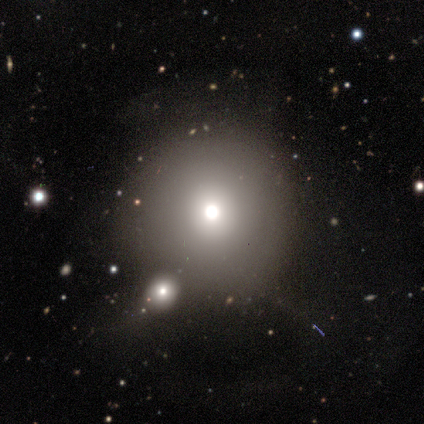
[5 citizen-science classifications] Volunteers were most divided on "smooth or featured" (2-way tie): smooth: 40%, featured or disk: 40%, star or artifact: 20%; "merging" (2-way tie): none: 50%, merger: 50%, minor disturbance: 0%, major disturbance: 0%. More confident: how rounded — round (100%).